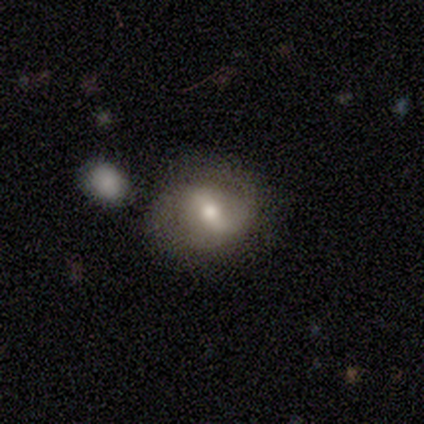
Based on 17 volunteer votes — smooth-or-featured: featured or disk: 71% | smooth: 24% | star or artifact: 6%
  disk-edge-on: no: 100% | yes: 0%
    bar: weak: 58% | strong: 33% | no: 8%
    has-spiral-arms: no: 58% | yes: 42%
    bulge-size: moderate: 83% | small: 17% | dominant: 0% | large: 0% | none: 0%
  merging: none: 75% | minor disturbance: 25% | major disturbance: 0% | merger: 0%